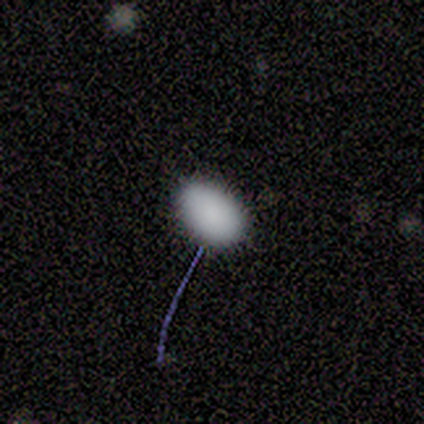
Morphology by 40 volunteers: A smooth galaxy with no disk features (82%) that is in between round and cigar-shaped (82%).

Vote fractions:
- Smooth or featured? smooth: 82% / star or artifact: 15% / featured or disk: 2%
- How rounded? in between: 82% / round: 18% / cigar-shaped: 0%
- Merging? none: 76% / minor disturbance: 18% / major disturbance: 6% / merger: 0%